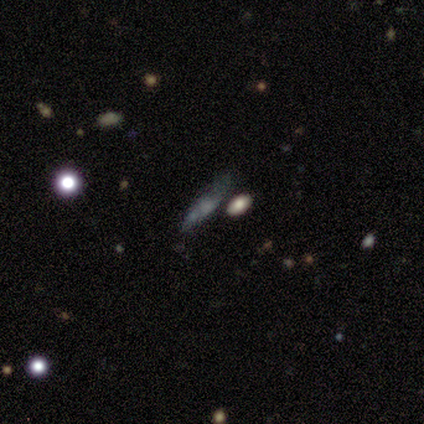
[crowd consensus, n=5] Q: Smooth or featured?
A: smooth (40%); tied with: featured or disk (40%)
Q: How rounded?
A: in between (100%)
Q: Merging?
A: none (50%); runner-up: minor disturbance (25%)